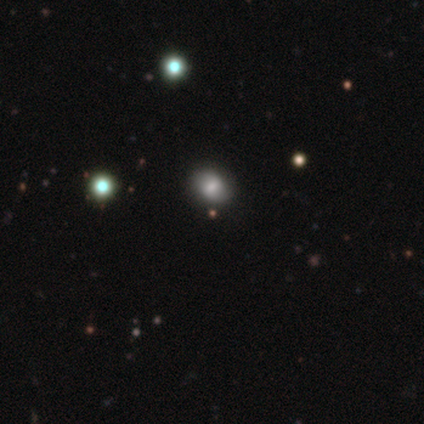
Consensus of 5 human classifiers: Volunteers were most divided on "how rounded" (2-way tie): round: 50%, in between: 50%, cigar-shaped: 0%. More confident: merging — none (100%); smooth or featured — smooth (80%).